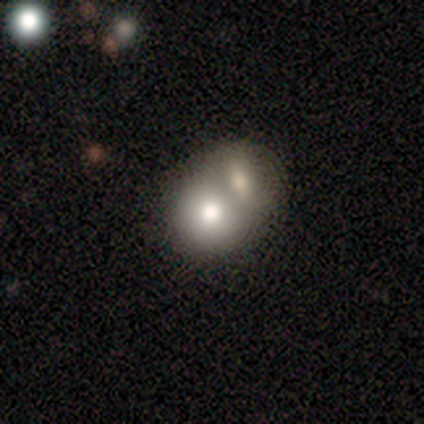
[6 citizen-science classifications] smooth_or_featured: smooth (p=1.00)
how_rounded: round (p=0.67) [alt: in between p=0.33]
merging: merger (p=0.67) [alt: none p=0.33]